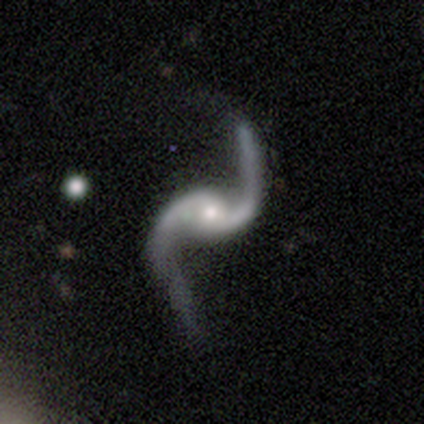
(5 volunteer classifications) smooth-or-featured: featured or disk: 100% | smooth: 0% | star or artifact: 0%
  disk-edge-on: no: 100% | yes: 0%
    bar: no: 60% | strong: 20% | weak: 20%
    has-spiral-arms: yes: 100% | no: 0%
      spiral-winding: loose: 80% | medium: 20% | tight: 0%
      spiral-arm-count: 2: 100% | 1: 0% | 3: 0% | 4: 0% | more than 4: 0% | can't tell: 0%
    bulge-size: moderate: 100% | dominant: 0% | large: 0% | small: 0% | none: 0%
  merging: none: 80% | minor disturbance: 20% | major disturbance: 0% | merger: 0%